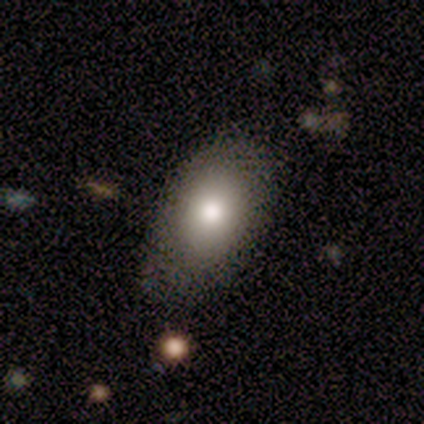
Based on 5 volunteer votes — Smooth or featured? smooth (100%)
How rounded? in between (100%)
Merging? none (100%)